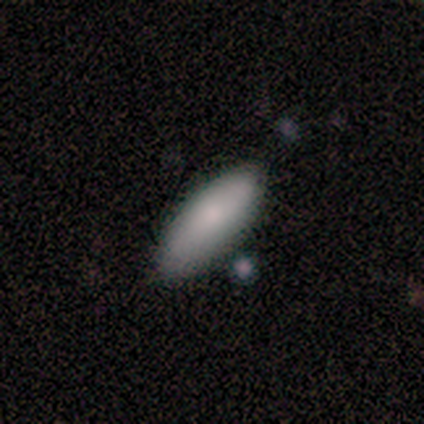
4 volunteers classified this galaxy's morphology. smooth_or_featured: smooth (p=0.50) [alt: featured or disk p=0.25]
how_rounded: round (p=0.50) [tied with: cigar-shaped p=0.50]
merging: none (p=0.33) [tied with: major disturbance p=0.33, merger p=0.33]